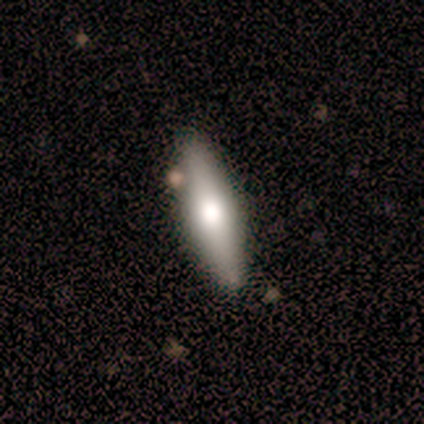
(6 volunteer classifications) Smooth or featured? smooth (50%, tied with featured or disk)
How rounded? in between (67%)
Merging? none (100%)